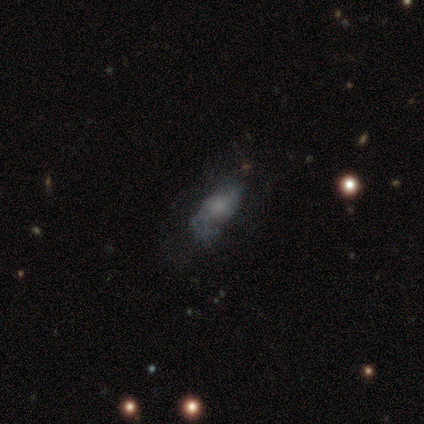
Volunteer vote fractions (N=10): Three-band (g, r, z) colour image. It shows a featured or disk galaxy (70%) with no bar (83%), 2 (80%) loose (100%) spiral arms (83%) and a moderate central bulge (50%). Merging: none (40%).